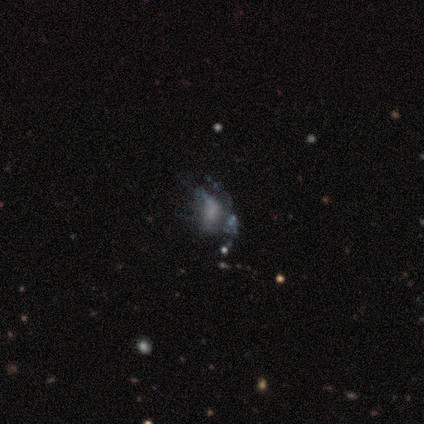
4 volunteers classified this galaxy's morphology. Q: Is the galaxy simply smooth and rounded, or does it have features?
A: featured or disk — 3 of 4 (75%).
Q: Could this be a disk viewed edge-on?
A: no — 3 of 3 (100%).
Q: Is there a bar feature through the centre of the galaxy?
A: no — 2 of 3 (67%).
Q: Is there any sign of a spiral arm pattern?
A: yes — 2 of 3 (67%).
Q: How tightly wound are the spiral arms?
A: tight — 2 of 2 (100%).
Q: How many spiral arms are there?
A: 3 — 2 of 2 (100%).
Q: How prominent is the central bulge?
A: moderate — 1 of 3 (33%, tied with small and none).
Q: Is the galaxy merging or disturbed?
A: none — 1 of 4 (25%, tied with minor disturbance, major disturbance and merger).